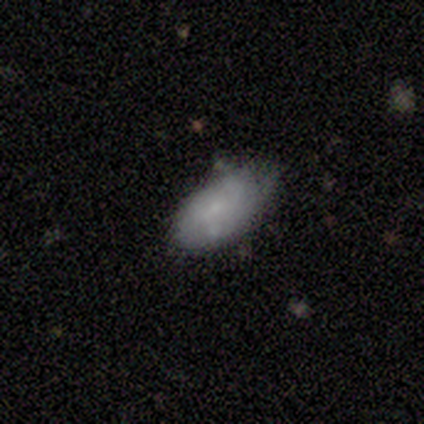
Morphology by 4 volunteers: smooth_or_featured: smooth (p=1.00)
how_rounded: in between (p=1.00)
merging: none (p=0.50) [tied with: minor disturbance p=0.50]